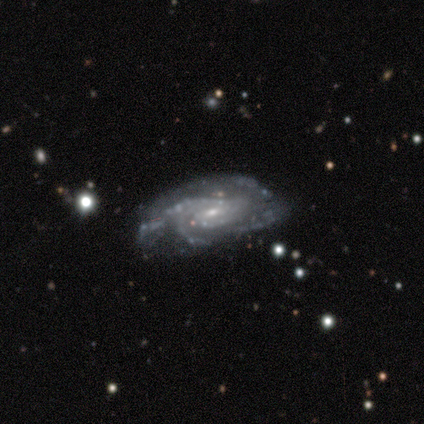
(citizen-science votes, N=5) Smooth or featured: featured or disk — 100%
Edge-on disk: no — 100%
Bar: weak — 80% (no — 20%)
Spiral arms: yes — 100%
Spiral winding: tight — 60% (medium — 40%)
Spiral arm count: 3 — 40% (tied with can't tell — 40%)
Bulge size: small — 60% (moderate — 20%)
Merging: none — 80% (minor disturbance — 20%)